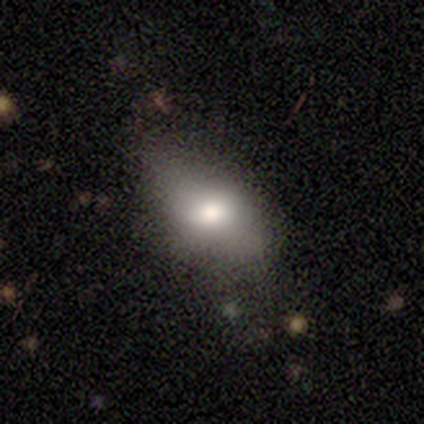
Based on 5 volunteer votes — Q: Smooth or featured?
A: smooth (80%); runner-up: featured or disk (20%)
Q: How rounded?
A: in between (100%)
Q: Merging?
A: none (100%)